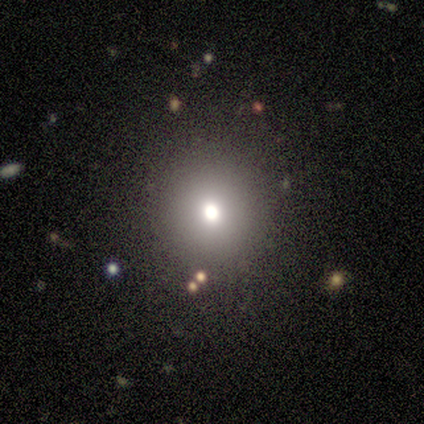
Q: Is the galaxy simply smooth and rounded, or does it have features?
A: smooth — 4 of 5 (80%).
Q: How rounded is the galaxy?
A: round — 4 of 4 (100%).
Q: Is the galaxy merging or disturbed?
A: none — 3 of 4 (75%).